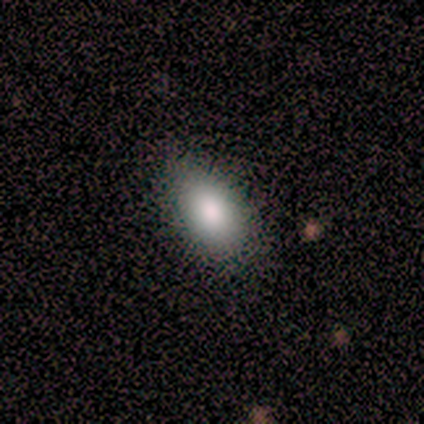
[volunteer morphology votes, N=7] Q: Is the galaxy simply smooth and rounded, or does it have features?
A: smooth — 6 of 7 (86%).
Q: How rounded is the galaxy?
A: in between — 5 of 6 (83%).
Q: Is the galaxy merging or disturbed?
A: none — 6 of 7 (86%).